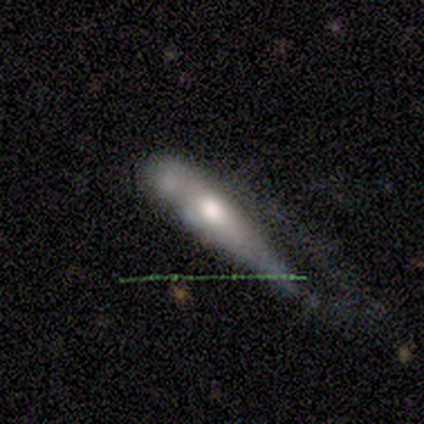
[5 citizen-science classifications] A smooth galaxy with no disk features (60%) that is cigar-shaped (67%). Merging: major disturbance (40%).